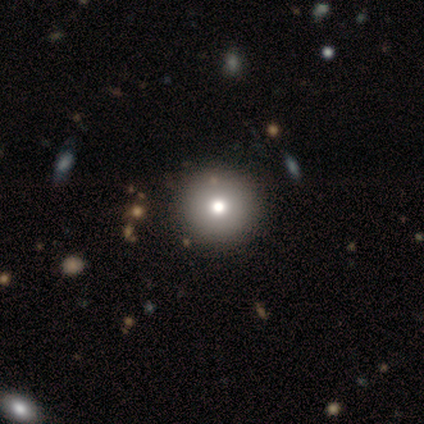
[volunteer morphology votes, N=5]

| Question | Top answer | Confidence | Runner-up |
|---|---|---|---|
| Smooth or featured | smooth | 60% | featured or disk (40%) |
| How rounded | round | 100% | — |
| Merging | none | 60% | minor disturbance (20%) |